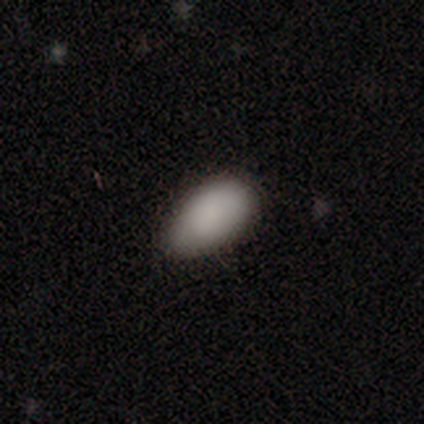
This appears to be a smooth galaxy with no disk features (87%) that is in between round and cigar-shaped (97%). Merging: none (57%).